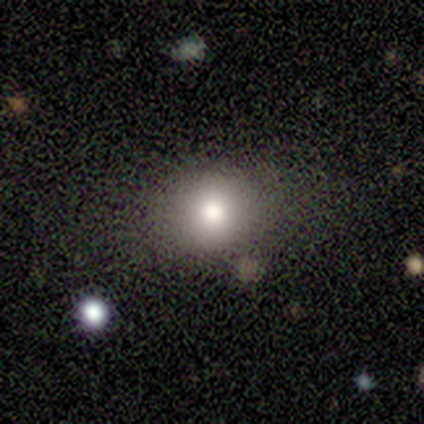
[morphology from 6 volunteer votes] A smooth galaxy with no disk features (100%) that is round (83%). Merging: none (50%, tied with minor disturbance).